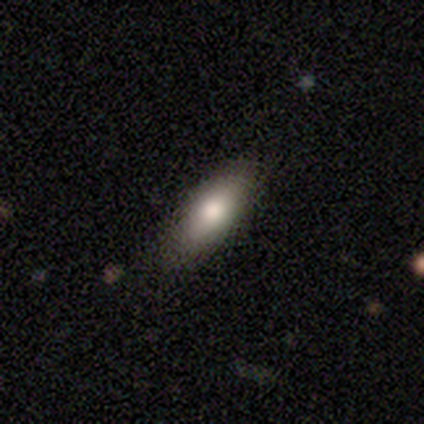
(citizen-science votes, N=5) A smooth galaxy with no disk features (100%) that is in between round and cigar-shaped (60%). Merging: none (80%).